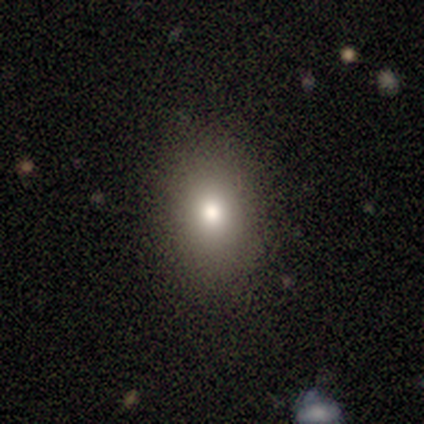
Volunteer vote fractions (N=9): Overall: smooth (89%). How rounded: in between (62%; round 38%). Merging: none (88%).